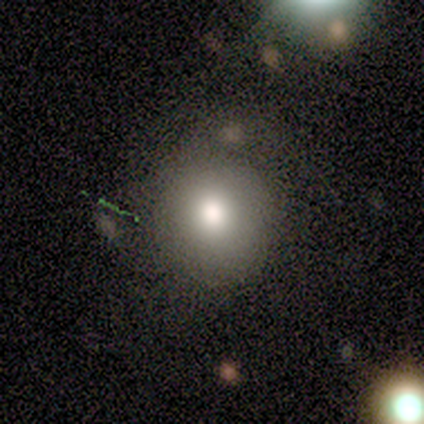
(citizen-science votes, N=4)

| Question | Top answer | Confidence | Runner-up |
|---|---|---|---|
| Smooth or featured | smooth | 75% | featured or disk (25%) |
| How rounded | round | 100% | — |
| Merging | none | 100% | — |